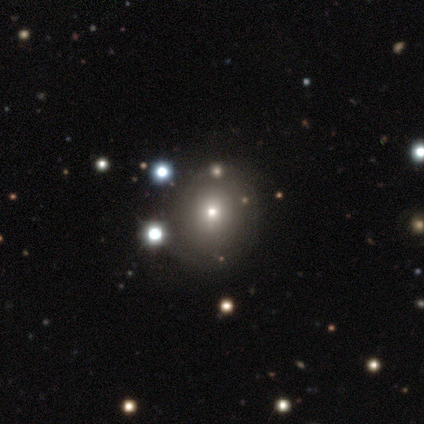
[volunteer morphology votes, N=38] A smooth galaxy with no disk features (55%) that is round (86%). Merging: none (50%).